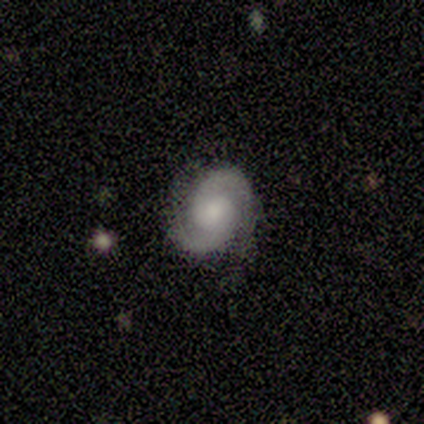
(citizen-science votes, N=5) A featured or disk galaxy (100%) with no bar (60%), 2 (100%) tight (60%) spiral arms (100%) and a small central bulge (60%).

Vote fractions:
- Smooth or featured? featured or disk: 100% / smooth: 0% / star or artifact: 0%
- Edge-on disk? no: 100% / yes: 0%
- Bar? no: 60% / weak: 40% / strong: 0%
- Spiral arms? yes: 100% / no: 0%
- Spiral winding? tight: 60% / medium: 20% / loose: 20%
- Spiral arm count? 2: 100% / 1: 0% / 3: 0% / 4: 0% / more than 4: 0% / can't tell: 0%
- Bulge size? small: 60% / large: 20% / moderate: 20% / dominant: 0% / none: 0%
- Merging? none: 100% / minor disturbance: 0% / major disturbance: 0% / merger: 0%